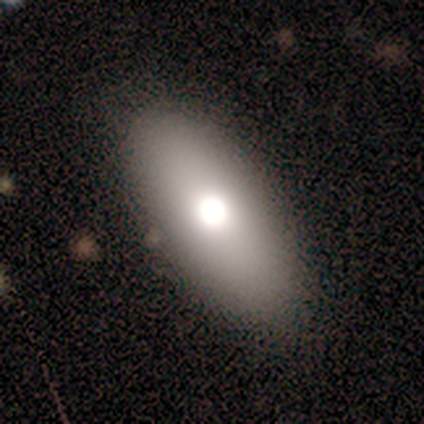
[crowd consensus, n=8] A featured or disk galaxy (50%) with no bar (100%), no spiral arms (100%) and a moderate central bulge (100%). Merging: none (100%).